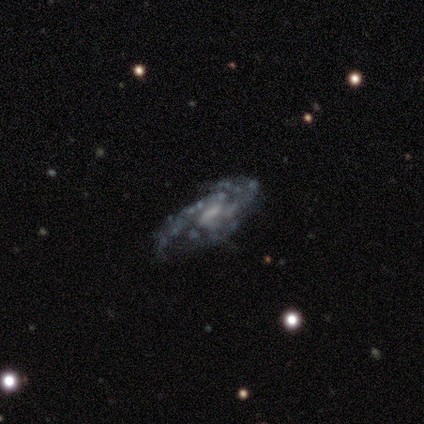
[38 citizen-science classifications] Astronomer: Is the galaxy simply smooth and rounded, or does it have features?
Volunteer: featured or disk — 95%.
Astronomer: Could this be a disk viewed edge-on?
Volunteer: no — 89%.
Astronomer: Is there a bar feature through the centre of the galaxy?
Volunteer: weak — 53% (runner-up: no, 47%).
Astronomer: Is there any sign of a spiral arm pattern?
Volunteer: yes — 91%.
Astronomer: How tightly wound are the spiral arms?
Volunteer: medium — 52% (runner-up: tight, 31%).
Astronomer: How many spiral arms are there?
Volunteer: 2 — 45% (runner-up: can't tell, 24%).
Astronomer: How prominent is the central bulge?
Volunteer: small — 38% (runner-up: moderate, 34%).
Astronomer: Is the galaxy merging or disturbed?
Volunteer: none — 62%.